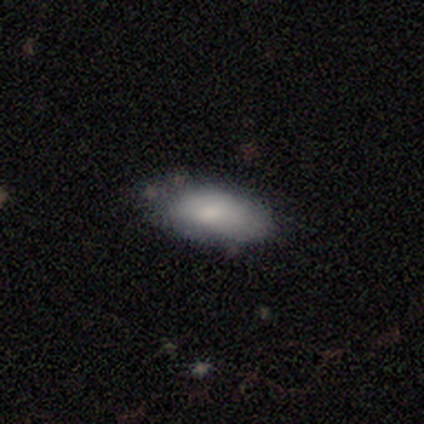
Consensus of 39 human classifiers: Smooth or featured? 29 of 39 (74%) said smooth. How rounded? 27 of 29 (93%) said in between. Merging? 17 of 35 (49%) said minor disturbance.